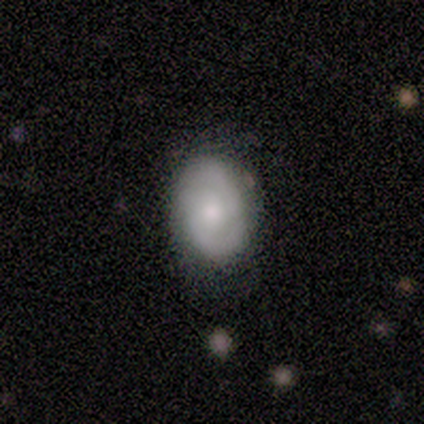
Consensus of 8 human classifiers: smooth-or-featured: smooth: 75% | featured or disk: 25% | star or artifact: 0%
  how-rounded: in between: 83% | round: 17% | cigar-shaped: 0%
  merging: none: 88% | minor disturbance: 12% | major disturbance: 0% | merger: 0%